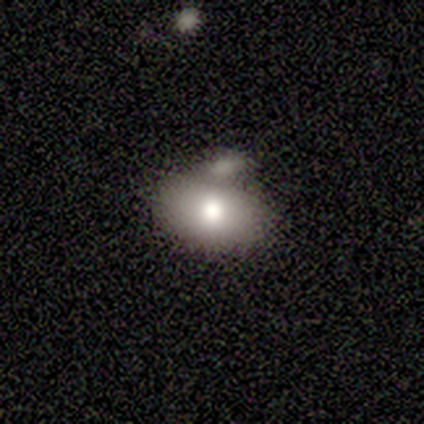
Smooth or featured? 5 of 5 (100%) said smooth. How rounded? 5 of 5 (100%) said in between. Merging? 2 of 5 (40%, tied with merger) said none.